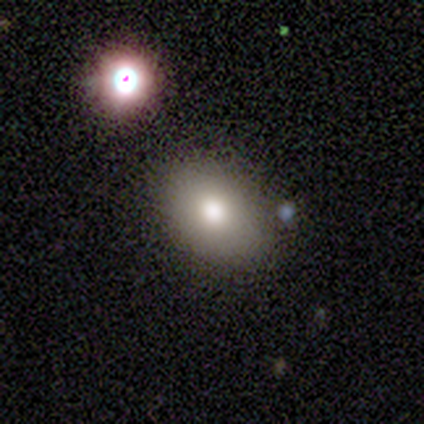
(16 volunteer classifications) Volunteers were most divided on "how rounded": in between: 62%, round: 38%, cigar-shaped: 0%. More confident: smooth or featured — smooth (81%); merging — none (53%).